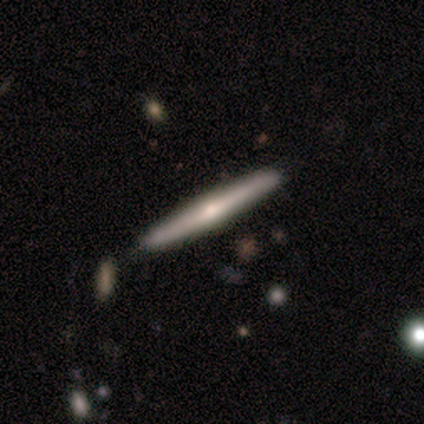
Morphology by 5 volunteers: Smooth or featured? featured or disk (100%)
Edge-on disk? yes (100%)
Edge-on bulge? rounded (80%)
Merging? none (100%)